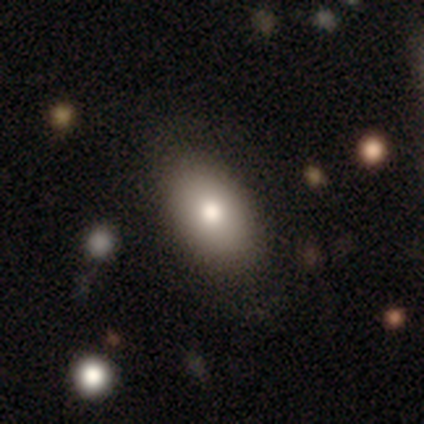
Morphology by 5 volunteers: Overall: smooth (60%; star or artifact 40%). How rounded: in between (67%; round 33%). Merging: none (100%).